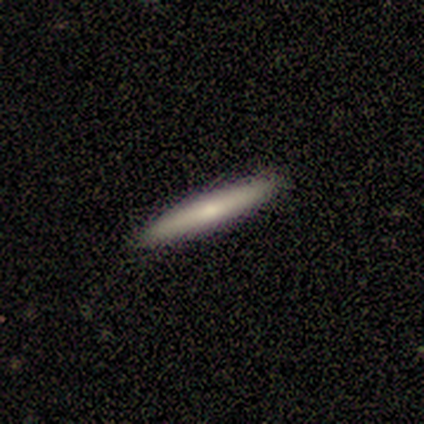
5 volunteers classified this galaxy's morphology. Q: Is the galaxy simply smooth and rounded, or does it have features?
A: smooth — 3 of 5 (60%).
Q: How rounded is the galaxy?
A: cigar-shaped — 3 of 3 (100%).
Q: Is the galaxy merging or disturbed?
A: none — 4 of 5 (80%).